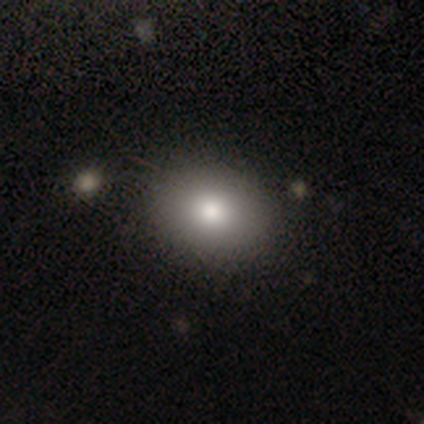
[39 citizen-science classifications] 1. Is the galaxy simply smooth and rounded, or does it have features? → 85% smooth, 10% featured or disk, 5% star or artifact.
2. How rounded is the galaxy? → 52% in between, 48% round, 0% cigar-shaped.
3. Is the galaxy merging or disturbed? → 59% none, 5% major disturbance, 3% minor disturbance, 0% merger.